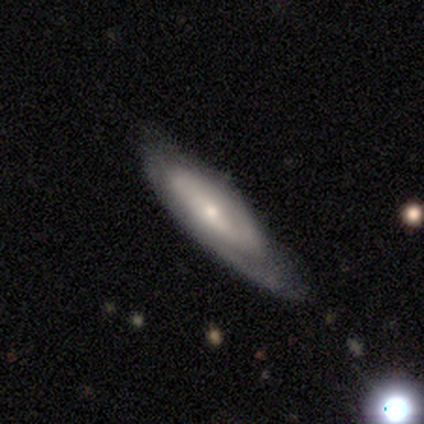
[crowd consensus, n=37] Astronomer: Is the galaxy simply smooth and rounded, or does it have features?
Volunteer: featured or disk — 70%.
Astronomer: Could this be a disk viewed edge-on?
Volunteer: no — 58% (runner-up: yes, 42%).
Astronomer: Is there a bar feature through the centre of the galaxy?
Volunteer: no — 67%.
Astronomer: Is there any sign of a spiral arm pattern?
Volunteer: yes — 73%.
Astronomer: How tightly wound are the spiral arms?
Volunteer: medium — 55% (runner-up: tight, 36%).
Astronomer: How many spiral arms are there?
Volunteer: can't tell — 55% (runner-up: 2, 36%).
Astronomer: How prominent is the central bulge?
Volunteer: small — 93%.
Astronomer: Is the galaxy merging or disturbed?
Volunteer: none — 58%.